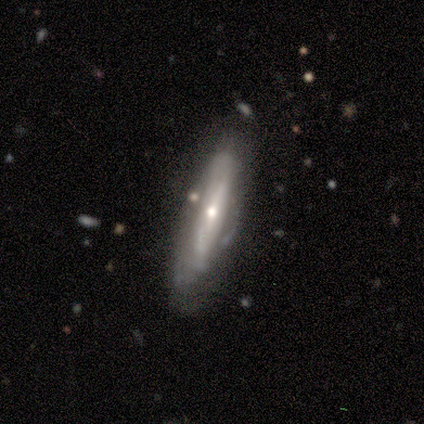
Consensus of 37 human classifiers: Smooth or featured? 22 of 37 (59%) said featured or disk. Edge-on disk? 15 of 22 (68%) said yes. Edge-on bulge? 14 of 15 (93%) said rounded. Merging? 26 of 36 (72%) said none.